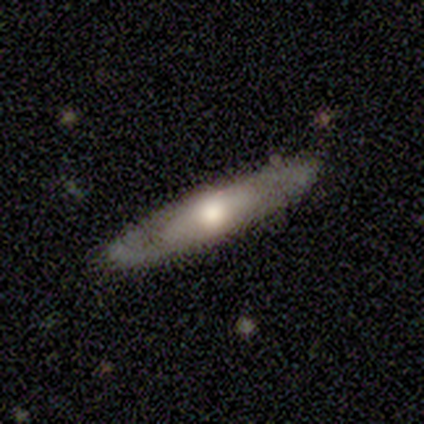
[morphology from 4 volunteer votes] Smooth or featured? featured or disk (100%)
Edge-on disk? yes (75%)
Edge-on bulge? rounded (100%)
Merging? none (75%)